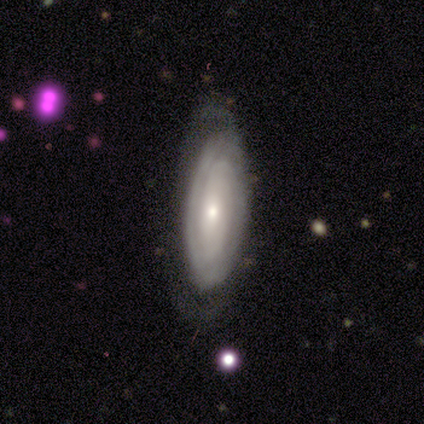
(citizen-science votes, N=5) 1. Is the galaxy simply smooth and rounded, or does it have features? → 60% featured or disk, 20% smooth, 20% star or artifact.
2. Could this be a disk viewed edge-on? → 100% no, 0% yes.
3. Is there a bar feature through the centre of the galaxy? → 33% strong (tied), 33% weak (tied), 33% no (tied).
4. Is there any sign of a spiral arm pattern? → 100% yes, 0% no.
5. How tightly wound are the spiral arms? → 67% loose, 33% tight, 0% medium.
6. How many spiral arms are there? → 33% 2 (tied), 33% more than 4 (tied), 33% can't tell (tied), 0% 1, 0% 3, 0% 4.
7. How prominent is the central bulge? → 33% large (tied), 33% moderate (tied), 33% small (tied), 0% dominant, 0% none.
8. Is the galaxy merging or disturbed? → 75% none, 25% minor disturbance, 0% major disturbance, 0% merger.